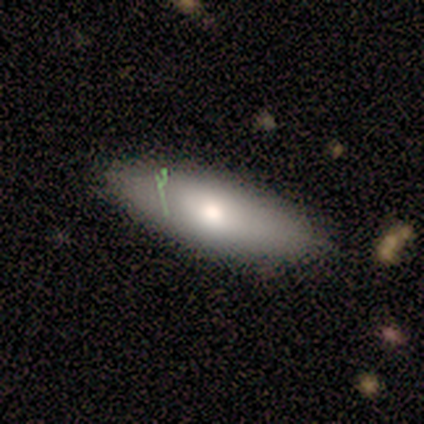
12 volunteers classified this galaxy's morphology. This is likely a smooth galaxy (67%). How rounded: clearly in between (88%). Merging: clearly none (92%).